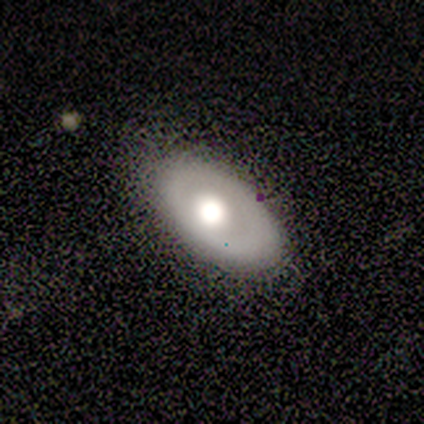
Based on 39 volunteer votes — Morphology: type=smooth (51%); roundness=in between (80%); merging=none (80%).